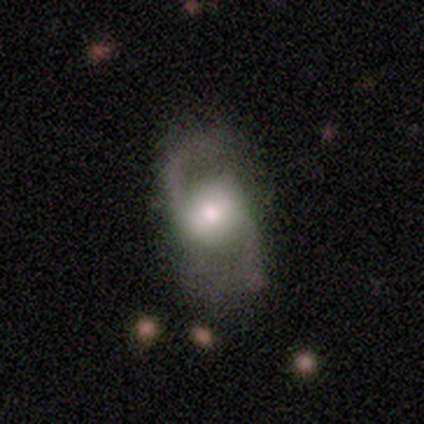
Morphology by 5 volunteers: This appears to be a featured or disk galaxy (80%) with a weak bar (50%, tied with no), 2 (100%) loose (100%) spiral arms (100%) and a moderate central bulge (50%, tied with small). Merging: none (60%).